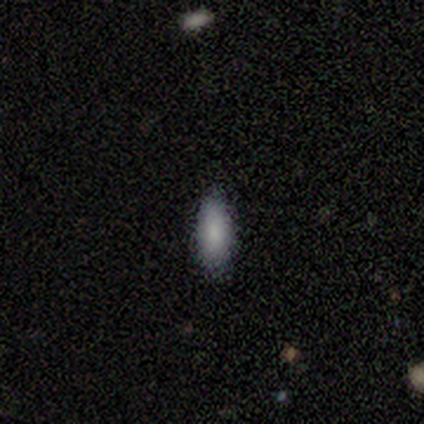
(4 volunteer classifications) Smooth or featured? smooth (100%)
How rounded? in between (50%, tied with cigar-shaped)
Merging? none (75%)